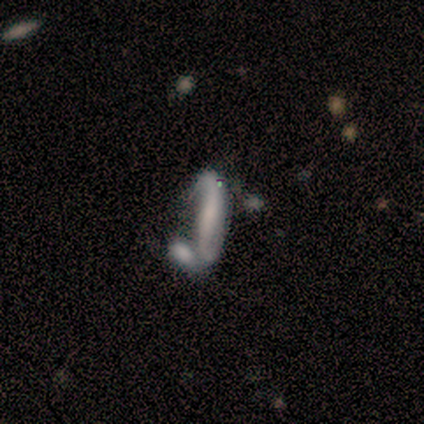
A featured or disk galaxy (62%) with no bar (75%), 2 (100%) medium (67%) spiral arms (75%) and a small central bulge (50%, tied with none). Merging: none (50%).